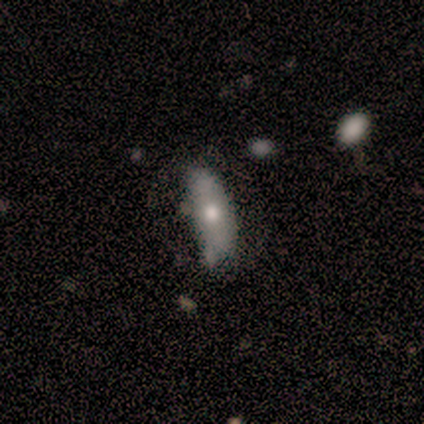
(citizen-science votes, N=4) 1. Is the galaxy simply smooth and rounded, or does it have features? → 75% smooth, 25% featured or disk, 0% star or artifact.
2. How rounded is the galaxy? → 100% in between, 0% round, 0% cigar-shaped.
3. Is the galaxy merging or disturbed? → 50% none, 25% minor disturbance, 25% major disturbance, 0% merger.